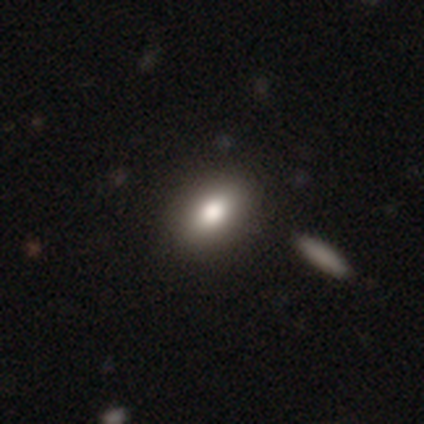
Smooth or featured? 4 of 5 (80%) said smooth. How rounded? 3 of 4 (75%) said in between. Merging? 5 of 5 (100%) said none.